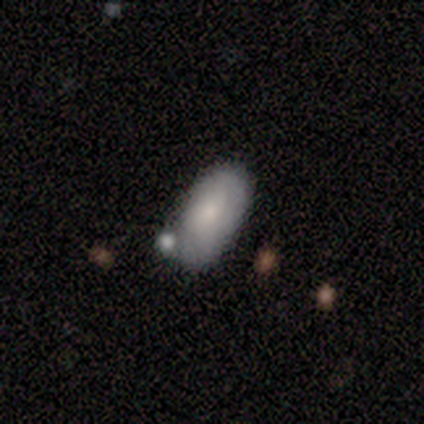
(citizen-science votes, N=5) Q: Smooth or featured?
A: featured or disk (60%); runner-up: smooth (40%)
Q: Edge-on disk?
A: yes (67%); runner-up: no (33%)
Q: Edge-on bulge?
A: rounded (100%)
Q: Merging?
A: none (60%); runner-up: merger (40%)